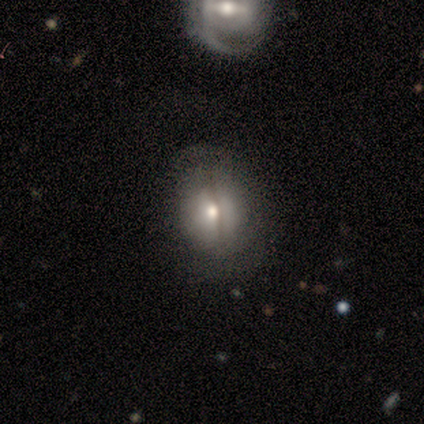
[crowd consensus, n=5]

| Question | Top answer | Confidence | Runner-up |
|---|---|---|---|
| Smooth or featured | smooth | 80% | featured or disk (20%) |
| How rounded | round | 50% | tied: in between (50%) |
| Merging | none | 60% | minor disturbance (20%) |